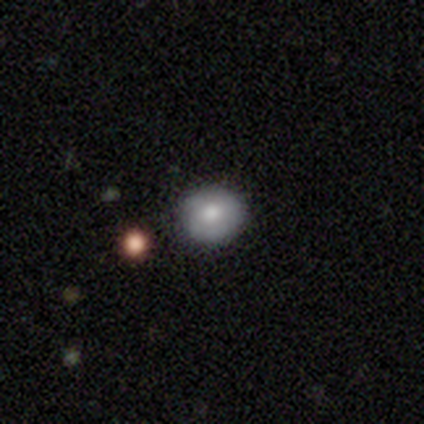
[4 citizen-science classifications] Smooth or featured: smooth — 50% (tied with featured or disk — 50%)
How rounded: round — 100%
Merging: none — 50% (tied with minor disturbance — 50%)